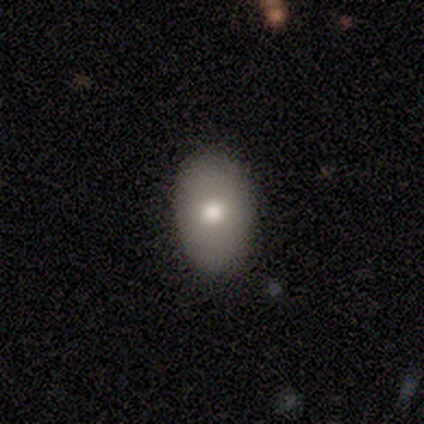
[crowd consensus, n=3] Smooth or featured? 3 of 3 (100%) said smooth. How rounded? 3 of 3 (100%) said in between. Merging? 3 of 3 (100%) said none.